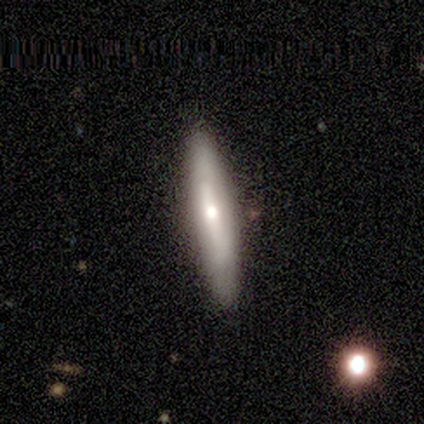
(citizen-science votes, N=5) A smooth galaxy with no disk features (100%) that is cigar-shaped (80%). Merging: none (80%).